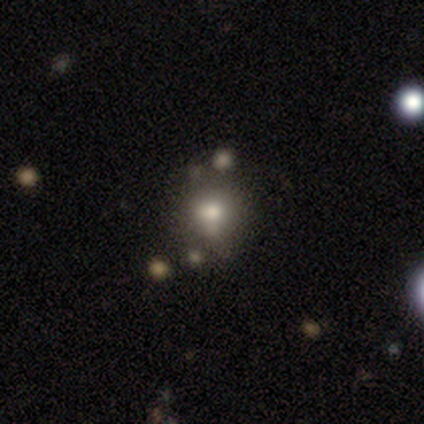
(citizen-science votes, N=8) This is likely a smooth galaxy (75%). How rounded: likely round (67%). Merging: likely none (75%).